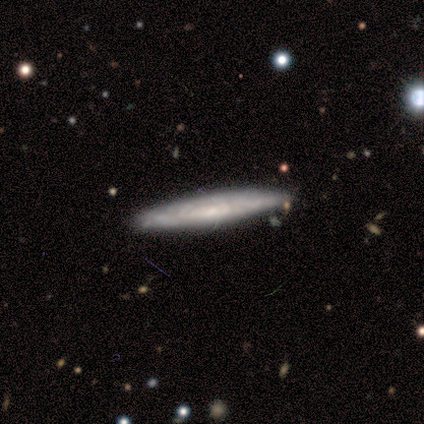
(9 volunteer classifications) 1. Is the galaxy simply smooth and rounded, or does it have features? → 56% featured or disk, 33% smooth, 11% star or artifact.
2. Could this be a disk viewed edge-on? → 60% no, 40% yes.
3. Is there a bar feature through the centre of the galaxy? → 100% no, 0% strong, 0% weak.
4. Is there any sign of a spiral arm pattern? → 100% yes, 0% no.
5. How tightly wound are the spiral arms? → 67% tight, 33% medium, 0% loose.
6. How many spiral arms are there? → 67% can't tell, 33% 2, 0% 1, 0% 3, 0% 4, 0% more than 4.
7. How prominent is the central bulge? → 100% small, 0% dominant, 0% large, 0% moderate, 0% none.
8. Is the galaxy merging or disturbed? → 88% none, 12% merger, 0% minor disturbance, 0% major disturbance.